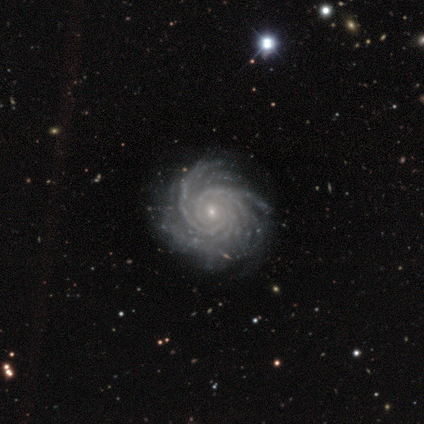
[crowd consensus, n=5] Smooth or featured?
  - featured or disk: 100% *
  - smooth: 0%
  - star or artifact: 0%
Edge-on disk?
  - no: 100% *
  - yes: 0%
Bar?
  - no: 80% *
  - strong: 20%
  - weak: 0%
Spiral arms?
  - yes: 100% *
  - no: 0%
Spiral winding?
  - medium: 60% *
  - tight: 40%
  - loose: 0%
Spiral arm count?
  - more than 4: 40% * (tied)
  - can't tell: 40% * (tied)
  - 3: 20%
  - 1: 0%
  - 2: 0%
  - 4: 0%
Bulge size?
  - small: 80% *
  - moderate: 20%
  - dominant: 0%
  - large: 0%
  - none: 0%
Merging?
  - none: 100% *
  - minor disturbance: 0%
  - major disturbance: 0%
  - merger: 0%